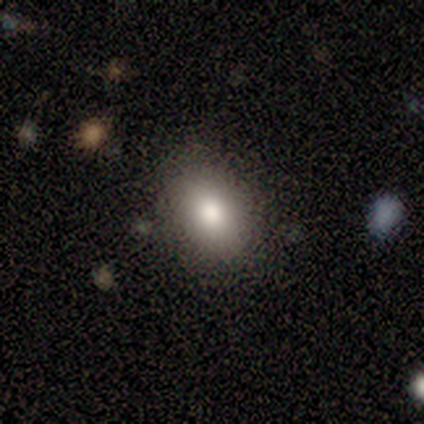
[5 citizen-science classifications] smooth 100%, featured or disk 0%, star or artifact 0%. Down the decision tree: how rounded — in between (60%); merging — none (100%).